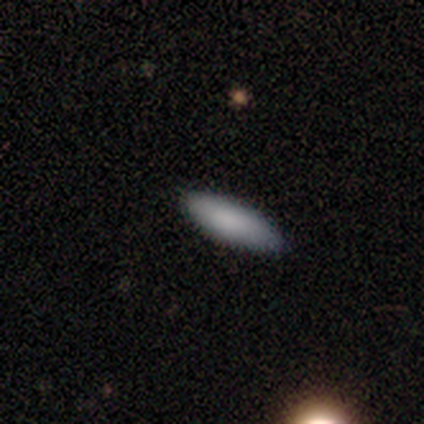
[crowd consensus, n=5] Smooth or featured?
  - smooth: 100% *
  - featured or disk: 0%
  - star or artifact: 0%
How rounded?
  - cigar-shaped: 60% *
  - in between: 40%
  - round: 0%
Merging?
  - none: 100% *
  - minor disturbance: 0%
  - major disturbance: 0%
  - merger: 0%